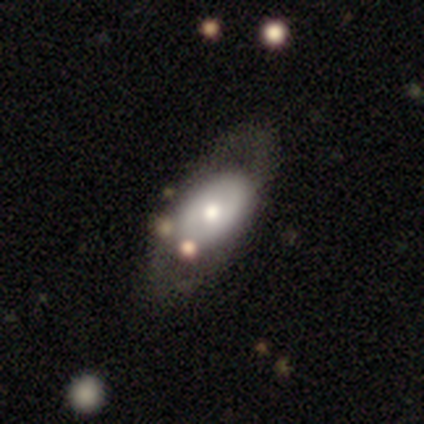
This is possibly a featured or disk galaxy (52%). It is clearly not viewed edge-on (95%). Bar: likely no (76%). Spiral arm pattern: clearly no (81%). Central bulge: likely moderate (67%). Merging: possibly none (58%).